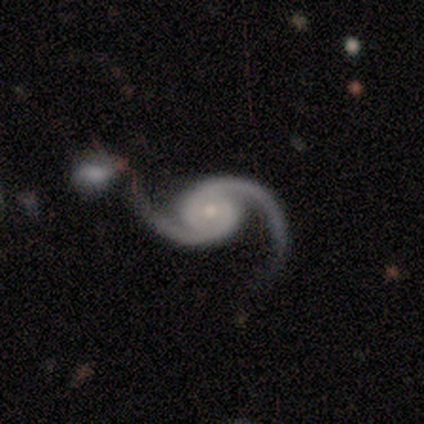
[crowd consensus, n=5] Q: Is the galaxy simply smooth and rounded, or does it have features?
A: featured or disk — 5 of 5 (100%).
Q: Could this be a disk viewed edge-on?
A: no — 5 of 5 (100%).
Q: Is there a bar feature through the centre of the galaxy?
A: no — 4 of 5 (80%).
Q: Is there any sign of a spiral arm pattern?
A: yes — 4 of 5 (80%).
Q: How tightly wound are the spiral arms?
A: loose — 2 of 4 (50%).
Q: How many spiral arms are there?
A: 2 — 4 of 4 (100%).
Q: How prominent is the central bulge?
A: small — 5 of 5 (100%).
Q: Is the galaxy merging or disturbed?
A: merger — 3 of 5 (60%).